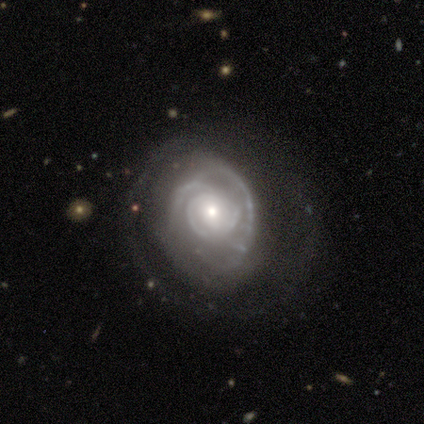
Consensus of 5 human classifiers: A featured or disk galaxy (80%) with no bar (75%), 2 (33%, tied with 3 and 4) tight (67%) spiral arms (75%) and a moderate central bulge (50%, tied with small). Merging: minor disturbance (40%, tied with major disturbance).